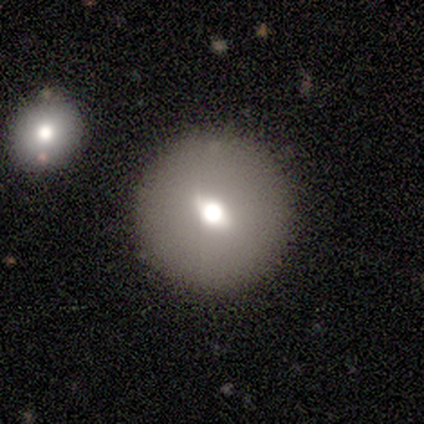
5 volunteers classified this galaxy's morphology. Q: Smooth or featured?
A: smooth (60%); runner-up: featured or disk (40%)
Q: How rounded?
A: round (100%)
Q: Merging?
A: none (100%)